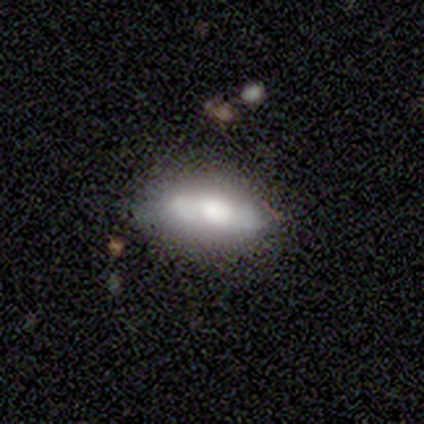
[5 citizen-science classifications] A smooth galaxy with no disk features (40%, tied with featured or disk) that is in between round and cigar-shaped (100%).

Vote fractions:
- Smooth or featured? smooth: 40% (tied) / featured or disk: 40% (tied) / star or artifact: 20%
- How rounded? in between: 100% / round: 0% / cigar-shaped: 0%
- Merging? none: 75% / minor disturbance: 25% / major disturbance: 0% / merger: 0%